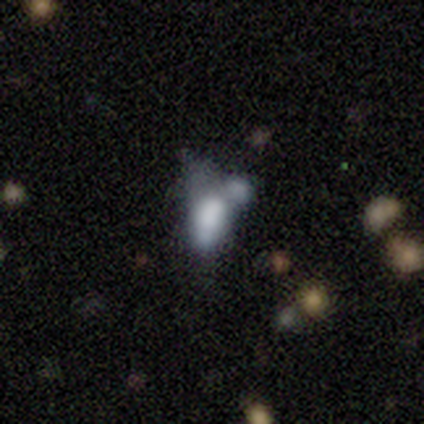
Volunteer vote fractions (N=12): Q: Smooth or featured?
A: star or artifact (50%); runner-up: featured or disk (33%)